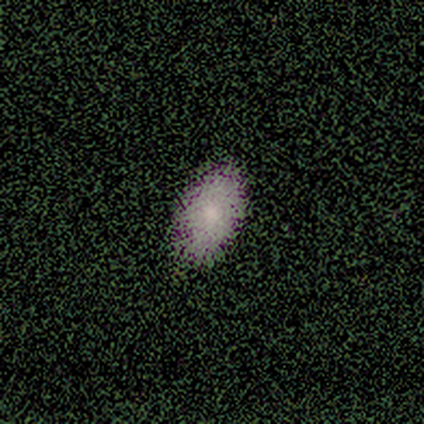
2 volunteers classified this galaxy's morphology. type=smooth (50%, tied with featured or disk); roundness=in between (100%); merging=none (100%).